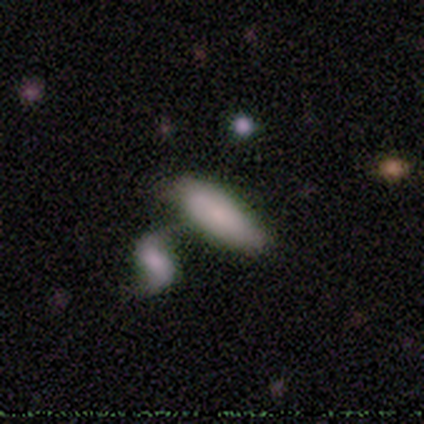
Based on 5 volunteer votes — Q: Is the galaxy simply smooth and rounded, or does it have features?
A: smooth — 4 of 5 (80%).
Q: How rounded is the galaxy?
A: in between — 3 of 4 (75%).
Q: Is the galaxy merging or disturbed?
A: minor disturbance — 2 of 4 (50%, tied with merger).